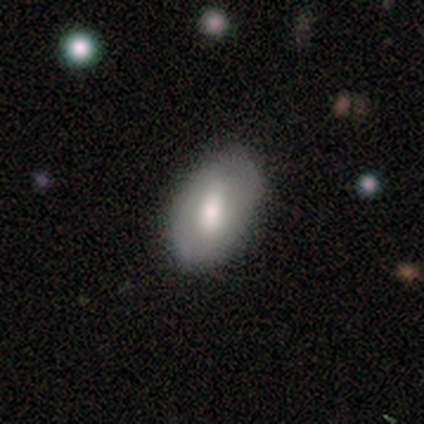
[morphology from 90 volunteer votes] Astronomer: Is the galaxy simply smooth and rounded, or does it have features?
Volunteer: smooth — 63%.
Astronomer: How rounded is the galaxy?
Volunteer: in between — 91%.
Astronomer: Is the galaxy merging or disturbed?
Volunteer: none — 67%.